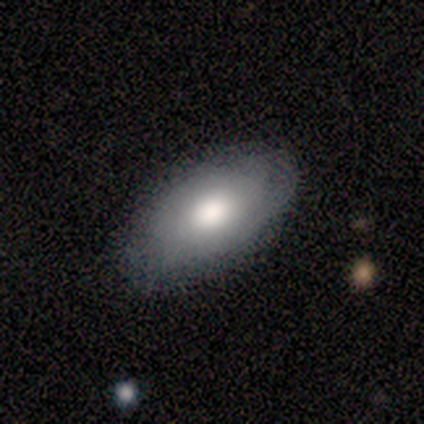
Smooth or featured? smooth (71%)
How rounded? in between (100%)
Merging? none (71%)